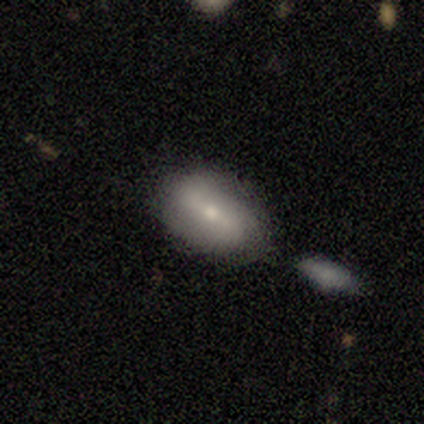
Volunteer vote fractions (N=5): featured or disk 60%, smooth 40%, star or artifact 0%. Down the decision tree: edge-on disk — no (100%); bar — weak (67%); spiral arms — yes (67%); spiral arm count — 2 (50%, tied with 3); spiral winding — tight (50%, tied with loose); bulge size — moderate (100%); merging — minor disturbance (60%).